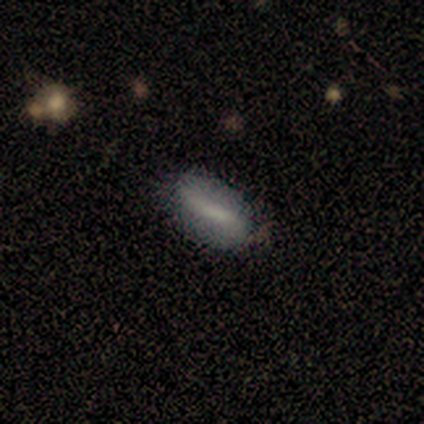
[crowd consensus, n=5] Volunteers were most divided on "how rounded": in between: 60%, cigar-shaped: 40%, round: 0%. More confident: smooth or featured — smooth (100%); merging — none (60%).